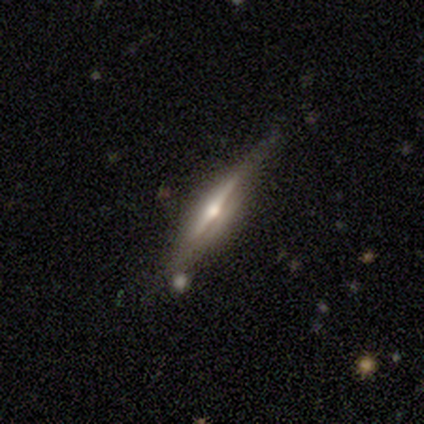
featured or disk 100%, smooth 0%, star or artifact 0%. Down the decision tree: edge-on disk — yes (100%); edge-on bulge — rounded (100%); merging — none (50%).